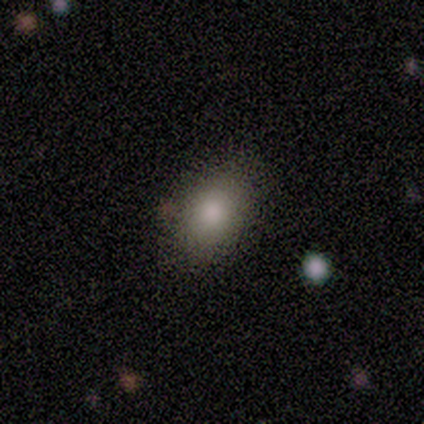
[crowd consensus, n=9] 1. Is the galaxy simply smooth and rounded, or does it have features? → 89% smooth, 11% star or artifact, 0% featured or disk.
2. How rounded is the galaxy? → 88% in between, 12% round, 0% cigar-shaped.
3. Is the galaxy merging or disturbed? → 100% none, 0% minor disturbance, 0% major disturbance, 0% merger.